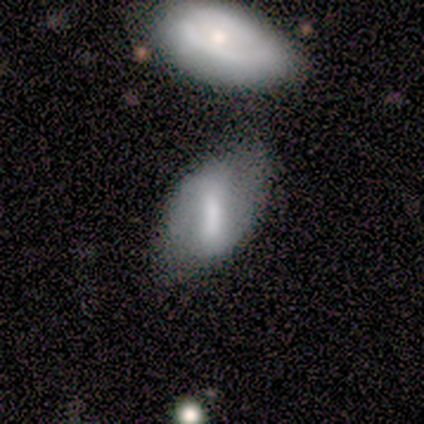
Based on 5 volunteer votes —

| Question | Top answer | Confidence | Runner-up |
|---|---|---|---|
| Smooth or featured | featured or disk | 80% | smooth (20%) |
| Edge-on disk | no | 100% | — |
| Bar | strong | 75% | weak (25%) |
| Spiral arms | yes | 50% | tied: no (50%) |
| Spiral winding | tight | 50% | tied: medium (50%) |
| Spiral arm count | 2 | 100% | — |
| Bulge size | moderate | 100% | — |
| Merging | none | 60% | minor disturbance (40%) |